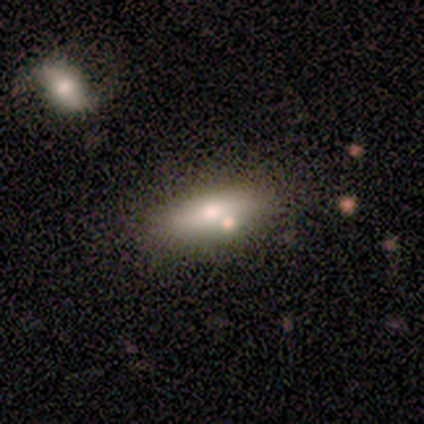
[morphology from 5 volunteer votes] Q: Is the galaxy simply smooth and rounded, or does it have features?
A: smooth — 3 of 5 (60%).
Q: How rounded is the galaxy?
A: in between — 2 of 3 (67%).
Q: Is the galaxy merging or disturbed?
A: none — 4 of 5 (80%).